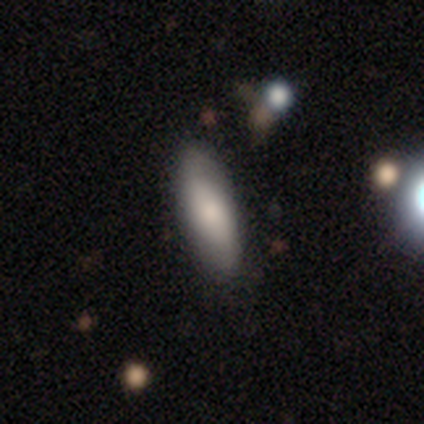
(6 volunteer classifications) A featured or disk galaxy (50%) with no bar (67%), no spiral arms (67%) and a large central bulge (67%).

Vote fractions:
- Smooth or featured? featured or disk: 50% / star or artifact: 33% / smooth: 17%
- Edge-on disk? no: 100% / yes: 0%
- Bar? no: 67% / strong: 33% / weak: 0%
- Spiral arms? no: 67% / yes: 33%
- Bulge size? large: 67% / small: 33% / dominant: 0% / moderate: 0% / none: 0%
- Merging? none: 75% / minor disturbance: 25% / major disturbance: 0% / merger: 0%